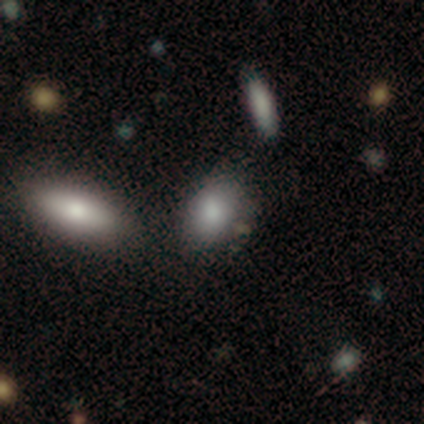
Smooth or featured? 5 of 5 (100%) said smooth. How rounded? 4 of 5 (80%) said in between. Merging? 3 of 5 (60%) said none.